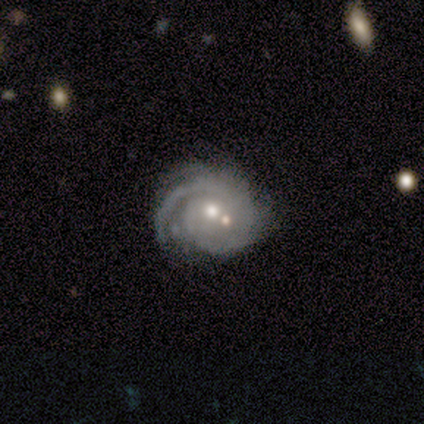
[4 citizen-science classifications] This is clearly a featured or disk galaxy (100%). It is clearly not viewed edge-on (100%). Bar: clearly no (100%). Spiral arm pattern: clearly yes (100%). Spiral arm count: possibly 1 (50%). Spiral winding: likely tight (75%). Central bulge: likely moderate (75%). Merging: likely none (75%).